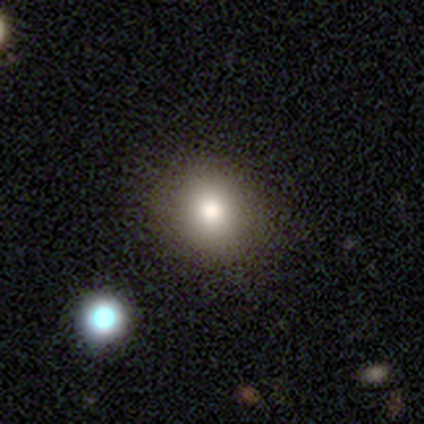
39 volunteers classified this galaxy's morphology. smooth_or_featured: smooth (p=0.74) [alt: star or artifact p=0.15]
how_rounded: round (p=0.76) [alt: in between p=0.24]
merging: none (p=0.64) [alt: merger p=0.09]